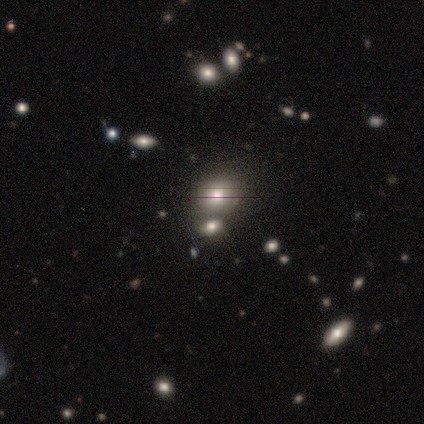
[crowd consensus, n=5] Smooth or featured? smooth (100%)
How rounded? round (100%)
Merging? none (80%)